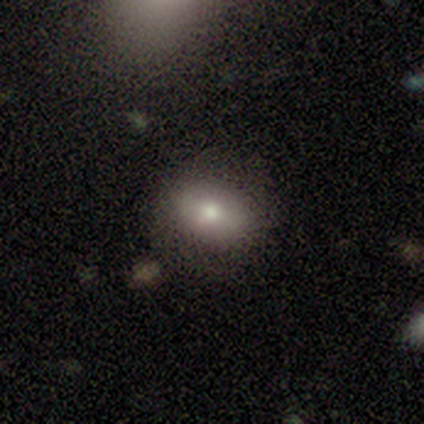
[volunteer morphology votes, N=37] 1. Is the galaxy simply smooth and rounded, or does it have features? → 68% smooth, 24% featured or disk, 8% star or artifact.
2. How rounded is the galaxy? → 52% round, 44% in between, 4% cigar-shaped.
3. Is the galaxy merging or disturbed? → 74% none, 12% minor disturbance, 9% major disturbance, 6% merger.